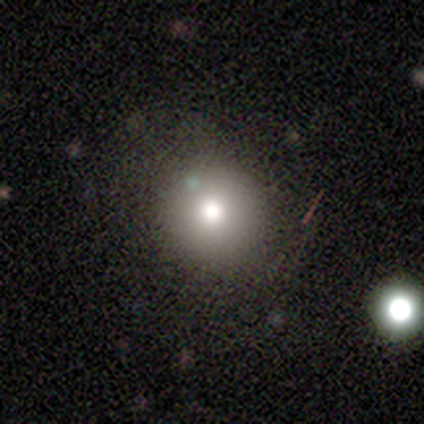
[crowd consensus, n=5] smooth-or-featured: smooth: 60% | star or artifact: 40% | featured or disk: 0%
  how-rounded: round: 100% | in between: 0% | cigar-shaped: 0%
  merging: none: 67% | minor disturbance: 33% | major disturbance: 0% | merger: 0%